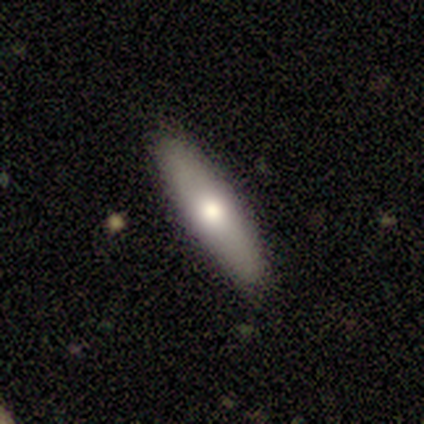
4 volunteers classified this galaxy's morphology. smooth 50% (tied), featured or disk 50% (tied), star or artifact 0%. Down the decision tree: how rounded — cigar-shaped (100%); merging — none (100%).